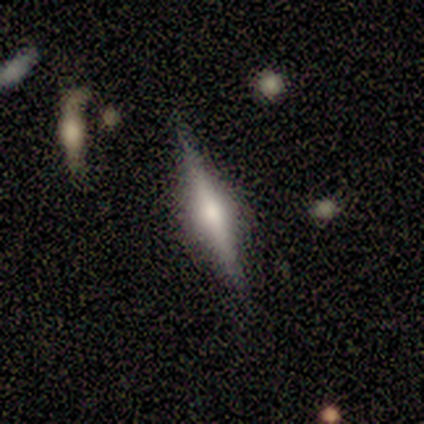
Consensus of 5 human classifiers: featured or disk 80%, smooth 20%, star or artifact 0%. Down the decision tree: edge-on disk — yes (100%); edge-on bulge — rounded (100%); merging — none (80%).